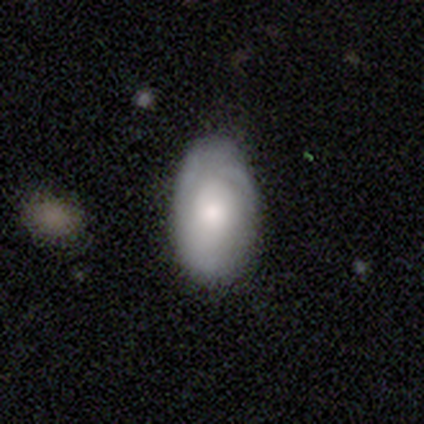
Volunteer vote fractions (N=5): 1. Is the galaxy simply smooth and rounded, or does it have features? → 100% smooth, 0% featured or disk, 0% star or artifact.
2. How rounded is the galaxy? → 100% in between, 0% round, 0% cigar-shaped.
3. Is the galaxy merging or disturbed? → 80% minor disturbance, 20% none, 0% major disturbance, 0% merger.